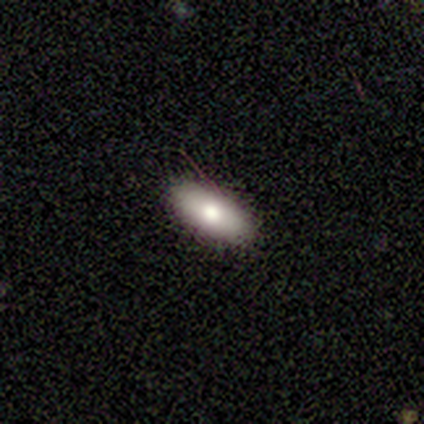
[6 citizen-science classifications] Smooth or featured? smooth (83%)
How rounded? in between (60%)
Merging? none (100%)